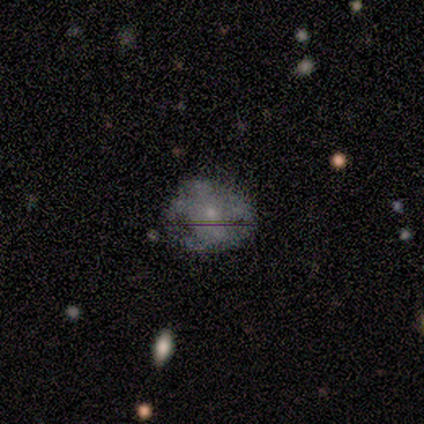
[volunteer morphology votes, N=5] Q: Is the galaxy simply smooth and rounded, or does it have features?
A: featured or disk — 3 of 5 (60%).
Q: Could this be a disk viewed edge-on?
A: no — 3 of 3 (100%).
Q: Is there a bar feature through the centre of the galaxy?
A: no — 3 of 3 (100%).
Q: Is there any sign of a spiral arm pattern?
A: no — 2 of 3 (67%).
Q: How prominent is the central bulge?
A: small — 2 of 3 (67%).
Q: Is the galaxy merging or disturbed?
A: none — 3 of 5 (60%).